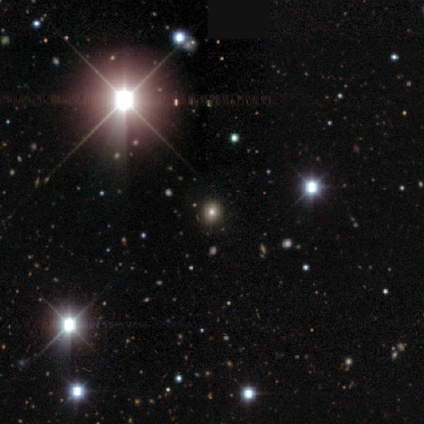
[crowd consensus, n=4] Volunteers were most divided on "how rounded": round: 67%, in between: 33%, cigar-shaped: 0%. More confident: merging — none (100%); smooth or featured — smooth (75%).